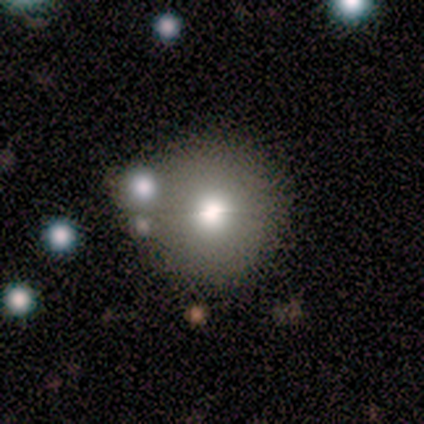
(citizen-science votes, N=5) A smooth galaxy with no disk features (80%) that is round (100%). Merging: none (100%).